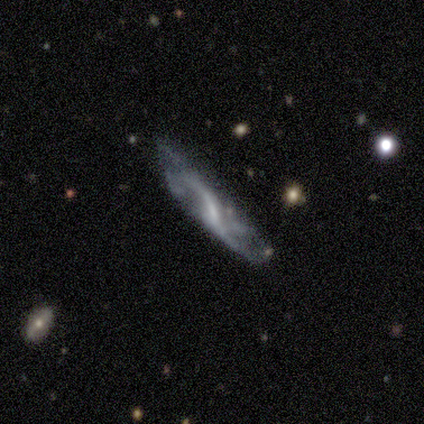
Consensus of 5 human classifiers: Smooth or featured: featured or disk — 80% (smooth — 20%)
Edge-on disk: no — 100%
Bar: weak — 75% (no — 25%)
Spiral arms: yes — 75% (no — 25%)
Spiral winding: loose — 100%
Spiral arm count: 2 — 67% (can't tell — 33%)
Bulge size: small — 50% (tied with none — 50%)
Merging: minor disturbance — 40% (tied with major disturbance — 40%)